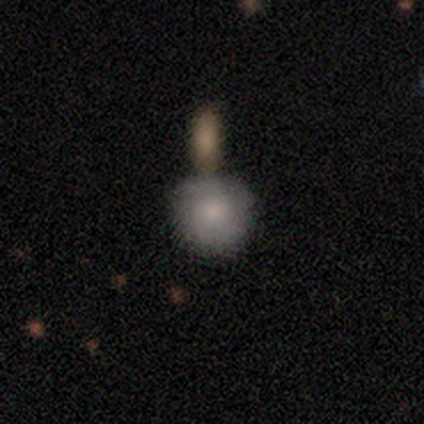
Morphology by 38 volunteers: This is likely a smooth galaxy (76%). How rounded: clearly round (93%). Merging: likely merger (63%).